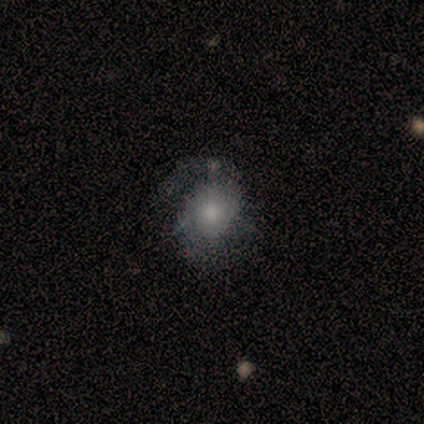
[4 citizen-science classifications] A featured or disk galaxy (75%) with a weak bar (67%), 2 (100%) medium (67%) spiral arms (100%) and a small central bulge (67%). Merging: none (75%).